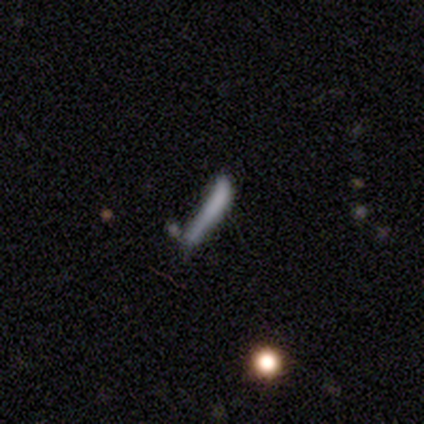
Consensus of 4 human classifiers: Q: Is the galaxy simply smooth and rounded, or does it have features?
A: smooth — 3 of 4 (75%).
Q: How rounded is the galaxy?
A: cigar-shaped — 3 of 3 (100%).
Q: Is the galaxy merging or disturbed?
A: none — 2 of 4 (50%, tied with major disturbance).